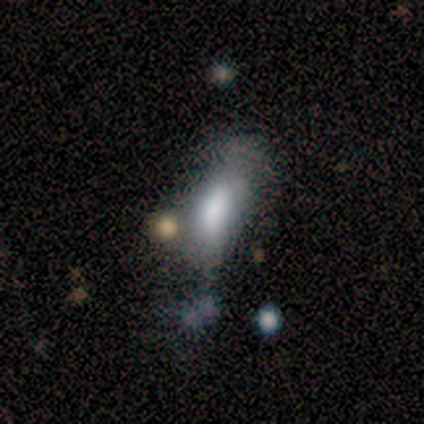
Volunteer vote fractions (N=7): smooth_or_featured: smooth (p=0.86) [alt: featured or disk p=0.14]
how_rounded: in between (p=0.50) [tied with: cigar-shaped p=0.50]
merging: merger (p=0.43) [alt: minor disturbance p=0.29]